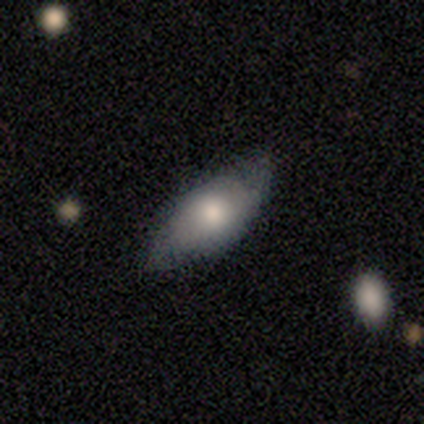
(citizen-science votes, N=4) Smooth or featured?
  - smooth: 75% *
  - featured or disk: 25%
  - star or artifact: 0%
How rounded?
  - in between: 100% *
  - round: 0%
  - cigar-shaped: 0%
Merging?
  - none: 75% *
  - minor disturbance: 25%
  - major disturbance: 0%
  - merger: 0%